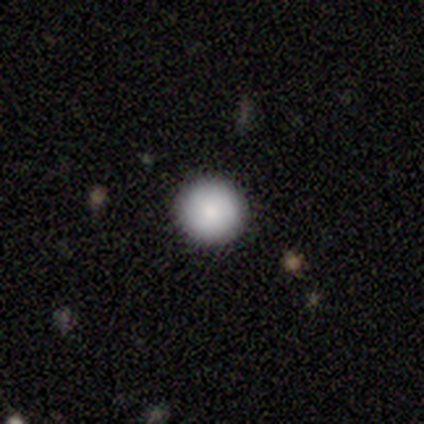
A smooth galaxy with no disk features (80%) that is round (100%).

Vote fractions:
- Smooth or featured? smooth: 80% / featured or disk: 20% / star or artifact: 0%
- How rounded? round: 100% / in between: 0% / cigar-shaped: 0%
- Merging? none: 80% / minor disturbance: 20% / major disturbance: 0% / merger: 0%